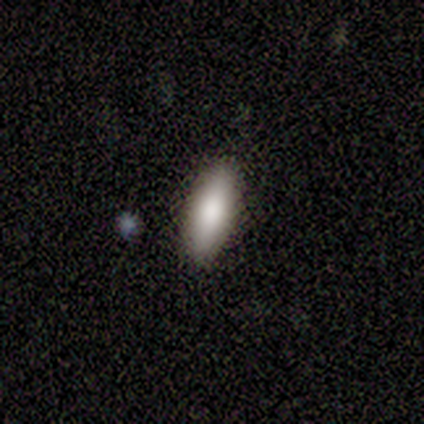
smooth-or-featured: smooth: 80% | star or artifact: 20% | featured or disk: 0%
  how-rounded: in between: 75% | cigar-shaped: 25% | round: 0%
  merging: none: 100% | minor disturbance: 0% | major disturbance: 0% | merger: 0%